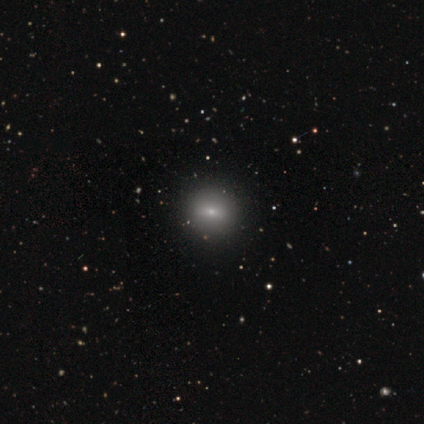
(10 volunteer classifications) Q: Smooth or featured?
A: smooth (60%); runner-up: featured or disk (30%)
Q: How rounded?
A: round (67%); runner-up: in between (33%)
Q: Merging?
A: none (89%); runner-up: minor disturbance (11%)